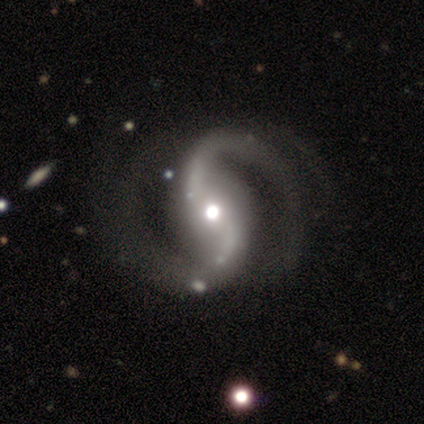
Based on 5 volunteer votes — Smooth or featured?
  - featured or disk: 100% *
  - smooth: 0%
  - star or artifact: 0%
Edge-on disk?
  - no: 100% *
  - yes: 0%
Bar?
  - strong: 40% * (tied)
  - no: 40% * (tied)
  - weak: 20%
Spiral arms?
  - yes: 100% *
  - no: 0%
Spiral winding?
  - loose: 60% *
  - medium: 40%
  - tight: 0%
Spiral arm count?
  - 2: 80% *
  - 4: 20%
  - 1: 0%
  - 3: 0%
  - more than 4: 0%
  - can't tell: 0%
Bulge size?
  - moderate: 80% *
  - large: 20%
  - dominant: 0%
  - small: 0%
  - none: 0%
Merging?
  - none: 60% *
  - minor disturbance: 20%
  - merger: 20%
  - major disturbance: 0%